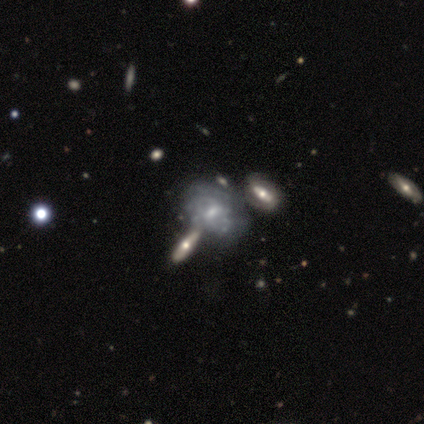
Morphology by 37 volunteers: This appears to be a featured or disk galaxy (70%) with no bar (48%), medium (53%) spiral arms (65%) and a small central bulge (70%). Merging: none (41%).